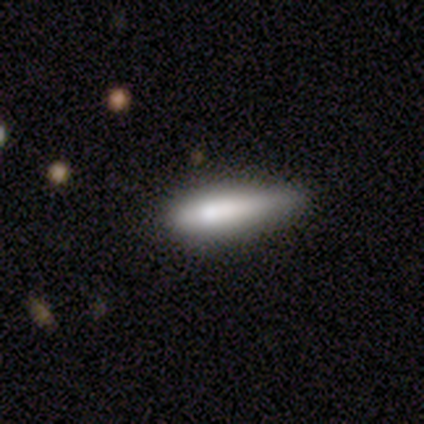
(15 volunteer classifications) smooth-or-featured: smooth: 73% | featured or disk: 13% | star or artifact: 13%
  how-rounded: cigar-shaped: 73% | in between: 27% | round: 0%
  merging: none: 46% (tied) | minor disturbance: 46% (tied) | major disturbance: 8% | merger: 0%